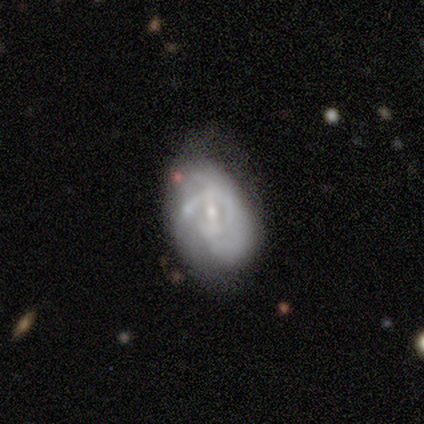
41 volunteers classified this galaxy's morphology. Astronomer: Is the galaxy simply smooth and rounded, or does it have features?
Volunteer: featured or disk — 76%.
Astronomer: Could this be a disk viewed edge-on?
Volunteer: no — 100%.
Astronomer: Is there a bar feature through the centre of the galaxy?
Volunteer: weak — 52% (runner-up: no, 29%).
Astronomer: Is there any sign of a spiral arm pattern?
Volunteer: yes — 74%.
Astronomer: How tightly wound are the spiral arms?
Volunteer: medium — 57% (runner-up: tight, 35%).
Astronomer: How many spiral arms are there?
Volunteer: can't tell — 70%.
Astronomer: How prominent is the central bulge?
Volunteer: small — 65%.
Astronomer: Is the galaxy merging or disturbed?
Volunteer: major disturbance — 39% (runner-up: minor disturbance, 34%).